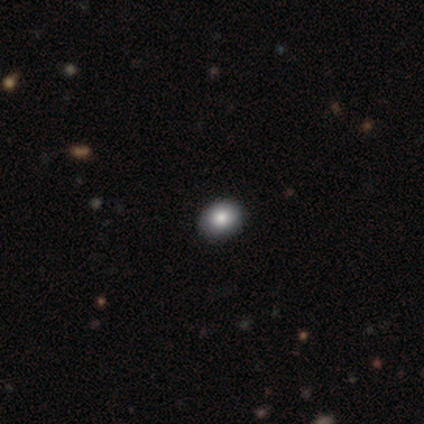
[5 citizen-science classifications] This is clearly a smooth galaxy (100%). How rounded: likely in between (60%). Merging: clearly none (100%).